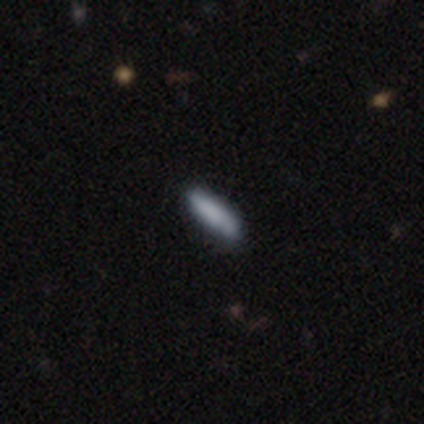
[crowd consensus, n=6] This is clearly a smooth galaxy (83%). How rounded: clearly cigar-shaped (80%). Merging: clearly none (100%).